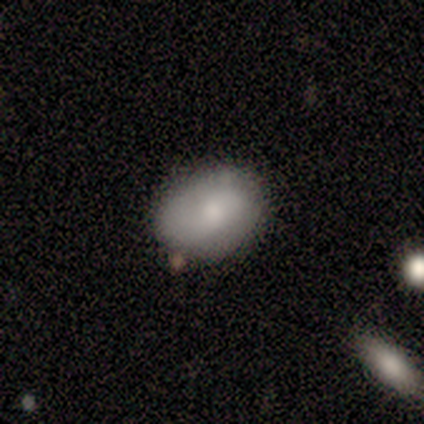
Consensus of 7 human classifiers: Smooth or featured?
  - smooth: 57% *
  - featured or disk: 29%
  - star or artifact: 14%
How rounded?
  - round: 50% * (tied)
  - in between: 50% * (tied)
  - cigar-shaped: 0%
Merging?
  - none: 67% *
  - minor disturbance: 17%
  - merger: 17%
  - major disturbance: 0%